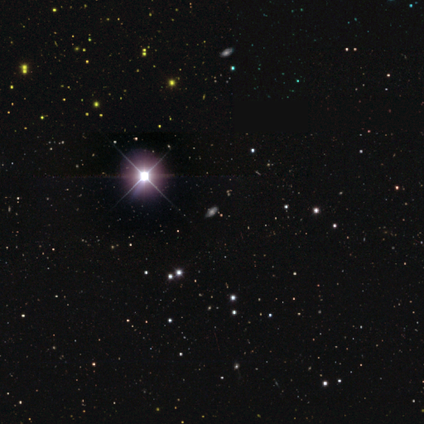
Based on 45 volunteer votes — A star or artifact, not a galaxy (62%).

Vote fractions:
- Smooth or featured? star or artifact: 62% / smooth: 31% / featured or disk: 7%